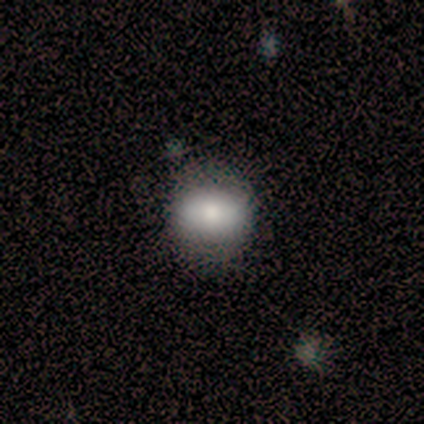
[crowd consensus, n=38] Q: Smooth or featured?
A: smooth (82%); runner-up: featured or disk (16%)
Q: How rounded?
A: in between (52%); runner-up: round (48%)
Q: Merging?
A: none (84%); runner-up: minor disturbance (5%)